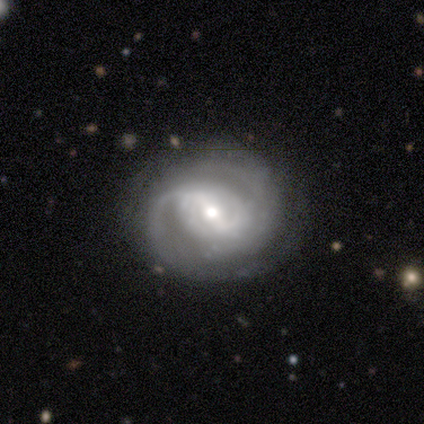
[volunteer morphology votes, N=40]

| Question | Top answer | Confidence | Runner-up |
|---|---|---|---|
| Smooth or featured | featured or disk | 82% | star or artifact (10%) |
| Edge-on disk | no | 100% | — |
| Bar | weak | 61% | strong (33%) |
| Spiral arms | yes | 100% | — |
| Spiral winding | medium | 52% | tight (36%) |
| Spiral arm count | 2 | 61% | can't tell (30%) |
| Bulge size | moderate | 58% | small (27%) |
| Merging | none | 78% | minor disturbance (22%) |